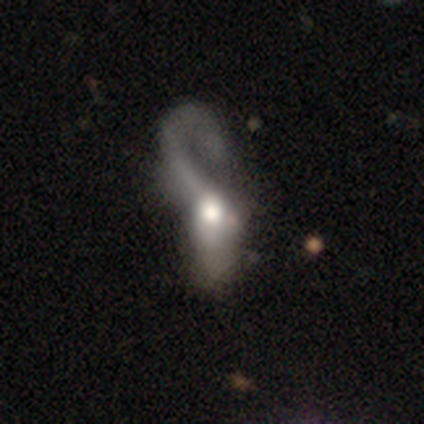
featured or disk 64%, smooth 36%, star or artifact 0%. Down the decision tree: edge-on disk — no (100%); bar — no (89%); spiral arms — yes (67%); spiral arm count — 1 (67%); spiral winding — loose (67%); bulge size — large (56%); merging — major disturbance (79%).